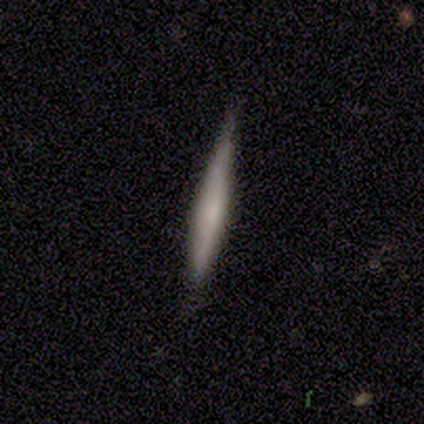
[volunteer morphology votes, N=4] Smooth or featured?
  - smooth: 75% *
  - star or artifact: 25%
  - featured or disk: 0%
How rounded?
  - cigar-shaped: 100% *
  - round: 0%
  - in between: 0%
Merging?
  - none: 100% *
  - minor disturbance: 0%
  - major disturbance: 0%
  - merger: 0%